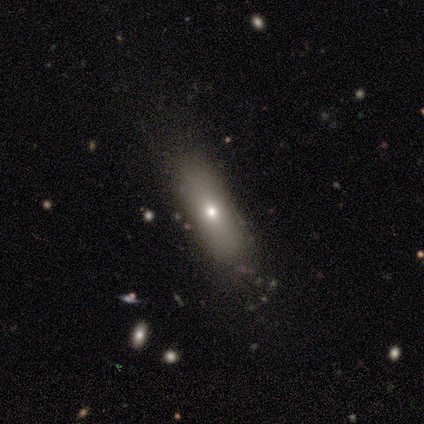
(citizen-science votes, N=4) Smooth or featured?
  - smooth: 75% *
  - star or artifact: 25%
  - featured or disk: 0%
How rounded?
  - in between: 67% *
  - cigar-shaped: 33%
  - round: 0%
Merging?
  - none: 67% *
  - minor disturbance: 33%
  - major disturbance: 0%
  - merger: 0%